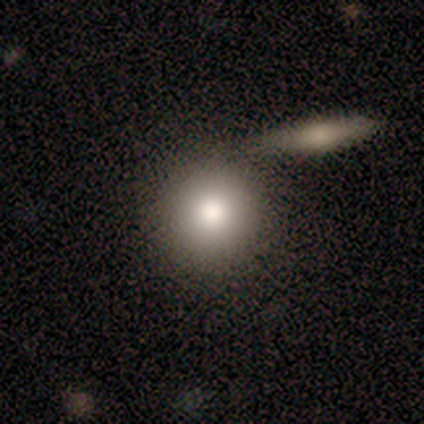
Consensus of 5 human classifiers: Overall: smooth (80%). How rounded: round (100%). Merging: none (100%).